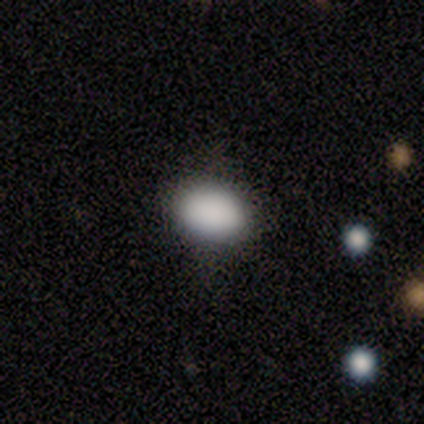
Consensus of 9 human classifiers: This appears to be a smooth galaxy with no disk features (89%) that is in between round and cigar-shaped (75%). Merging: none (100%).